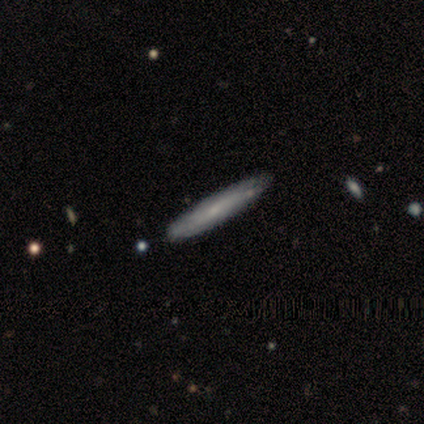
Smooth or featured: smooth — 50% (tied with featured or disk — 50%)
How rounded: cigar-shaped — 100%
Merging: none — 55% (merger — 11%)